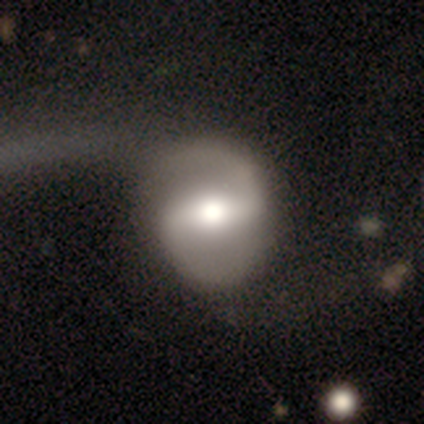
This is clearly a featured or disk galaxy (100%). It is clearly not viewed edge-on (100%). Bar: clearly strong (80%). Spiral arm pattern: clearly yes (80%). Spiral arm count: clearly 2 (100%). Spiral winding: possibly medium (50%). Central bulge: clearly moderate (100%). Merging: likely none (60%).